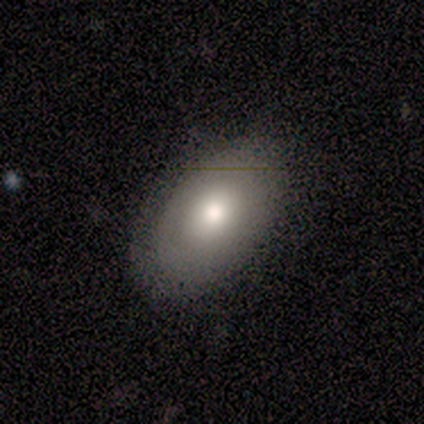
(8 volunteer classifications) A smooth galaxy with no disk features (62%) that is in between round and cigar-shaped (60%). Merging: none (75%).